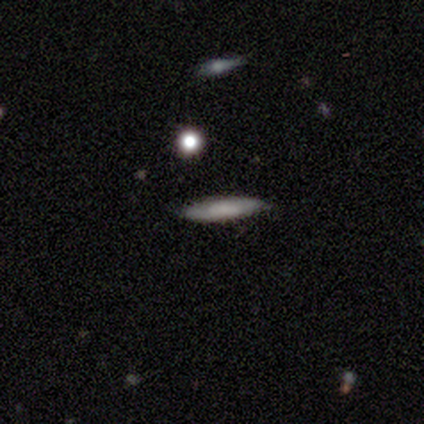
A smooth galaxy with no disk features (100%) that is cigar-shaped (75%). Merging: none (100%).